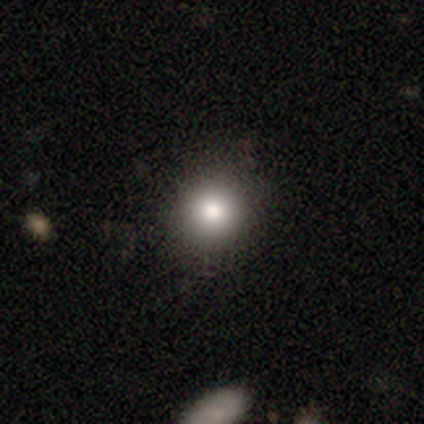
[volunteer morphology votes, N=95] smooth 83%, star or artifact 11%, featured or disk 6%. Down the decision tree: how rounded — round (91%); merging — none (86%).